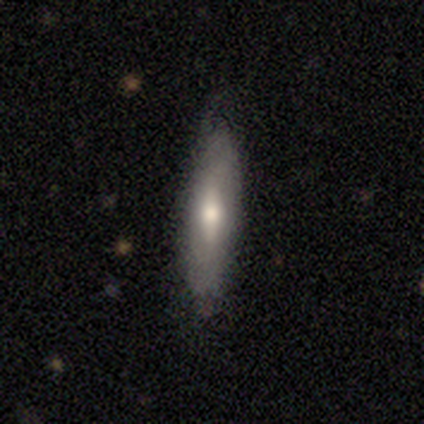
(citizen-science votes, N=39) Volunteers were most divided on "smooth or featured": smooth: 54%, featured or disk: 38%, star or artifact: 8%. More confident: merging — none (69%); how rounded — cigar-shaped (67%).